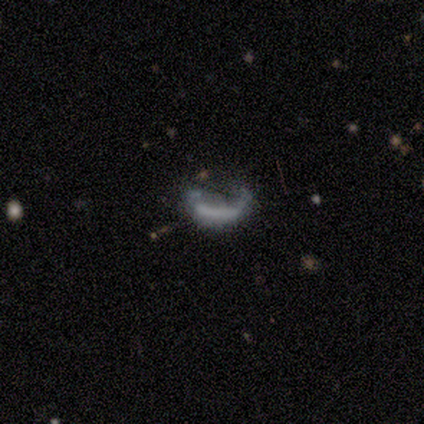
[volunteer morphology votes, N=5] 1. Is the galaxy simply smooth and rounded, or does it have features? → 80% smooth, 20% featured or disk, 0% star or artifact.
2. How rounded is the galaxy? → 100% cigar-shaped, 0% round, 0% in between.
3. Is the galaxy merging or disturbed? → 80% major disturbance, 20% none, 0% minor disturbance, 0% merger.